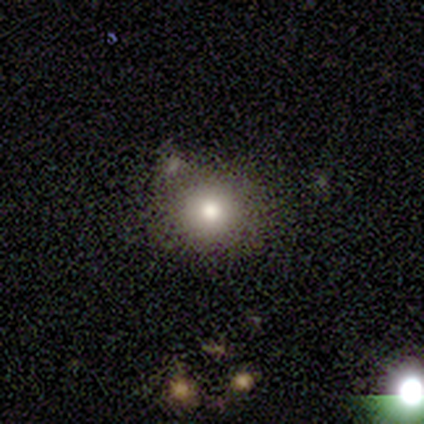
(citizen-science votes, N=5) Smooth or featured: smooth — 100%
How rounded: round — 80% (in between — 20%)
Merging: none — 100%